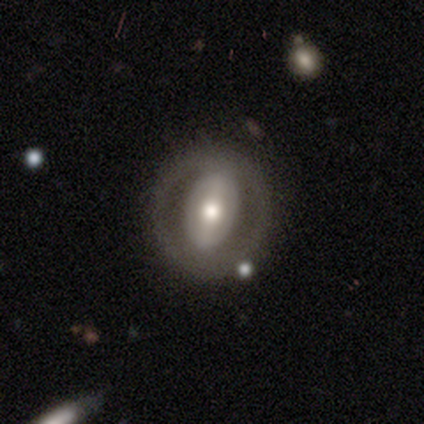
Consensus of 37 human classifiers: Smooth or featured: featured or disk — 73% (smooth — 19%)
Edge-on disk: no — 100%
Bar: no — 41% (strong — 37%)
Spiral arms: no — 89% (yes — 11%)
Bulge size: moderate — 59% (large — 22%)
Merging: none — 82% (minor disturbance — 15%)